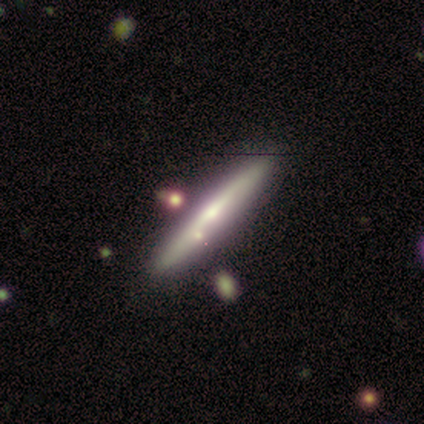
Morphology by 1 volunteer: Smooth or featured? 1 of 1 (100%) said featured or disk. Edge-on disk? 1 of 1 (100%) said yes. Edge-on bulge? 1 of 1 (100%) said boxy. Merging? 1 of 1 (100%) said none.